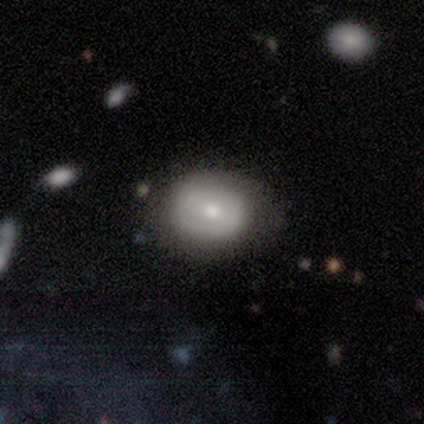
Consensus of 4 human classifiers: Overall: smooth (75%). How rounded: in between (100%). Merging: none (75%).